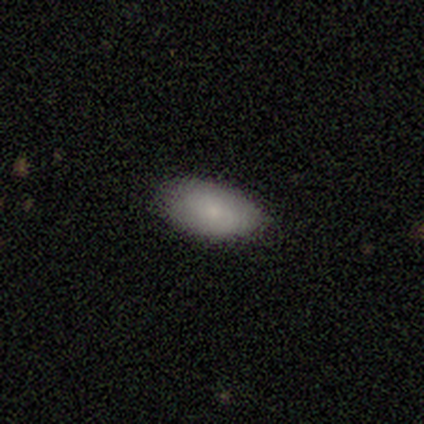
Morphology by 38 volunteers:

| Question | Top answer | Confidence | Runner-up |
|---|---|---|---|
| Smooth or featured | smooth | 82% | featured or disk (16%) |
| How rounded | in between | 94% | cigar-shaped (6%) |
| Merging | none | 81% | minor disturbance (19%) |